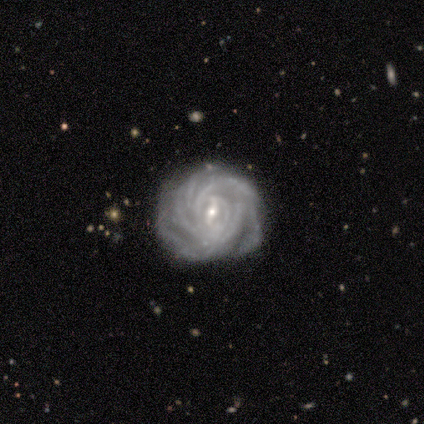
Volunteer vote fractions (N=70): This is clearly a featured or disk galaxy (94%). It is clearly not viewed edge-on (98%). Bar: likely weak (71%). Spiral arm pattern: clearly yes (100%). Spiral arm count: possibly more than 4 (55%). Spiral winding: clearly tight (83%). Central bulge: likely small (72%). Merging: marginally none (35%).